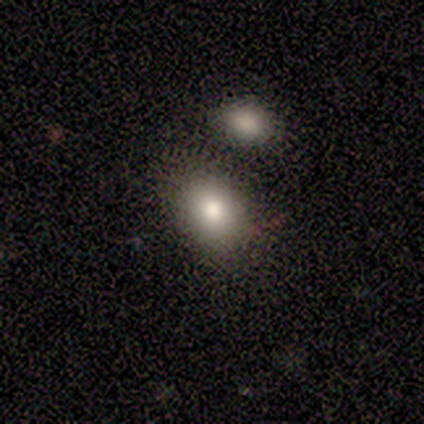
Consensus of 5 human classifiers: Morphology: type=smooth (80%); roundness=in between (75%); merging=minor disturbance (75%).